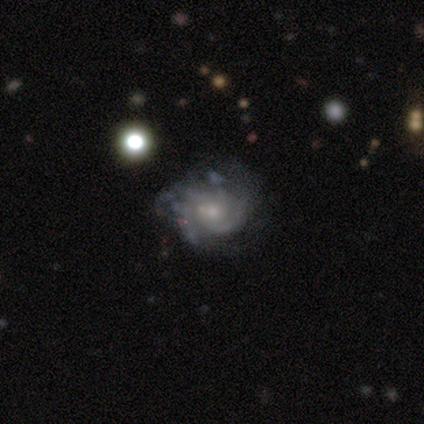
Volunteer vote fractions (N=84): smooth-or-featured: featured or disk: 88% | smooth: 8% | star or artifact: 4%
  disk-edge-on: no: 99% | yes: 1%
    bar: no: 68% | weak: 32% | strong: 0%
    has-spiral-arms: yes: 93% | no: 7%
      spiral-winding: tight: 62% | medium: 34% | loose: 4%
      spiral-arm-count: 2: 40% | can't tell: 26% | 3: 19% | 4: 10% | 1: 4% | more than 4: 0%
    bulge-size: small: 63% | moderate: 29% | none: 5% | dominant: 1% | large: 1%
  merging: none: 69% | minor disturbance: 19% | major disturbance: 11% | merger: 1%